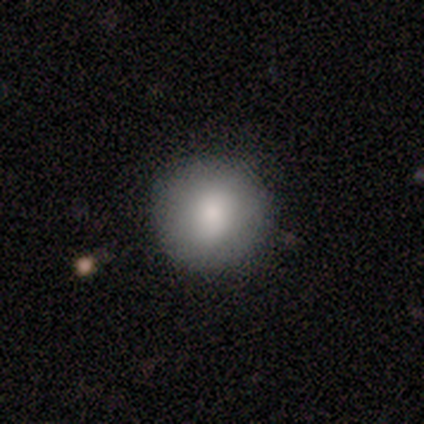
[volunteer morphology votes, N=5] Smooth or featured? 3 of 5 (60%) said featured or disk. Edge-on disk? 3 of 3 (100%) said no. Bar? 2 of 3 (67%) said no. Spiral arms? 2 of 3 (67%) said no. Bulge size? 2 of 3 (67%) said moderate. Merging? 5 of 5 (100%) said none.